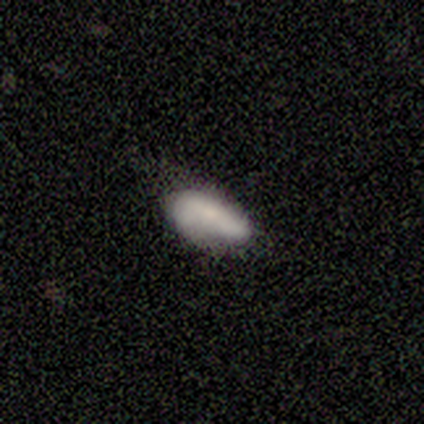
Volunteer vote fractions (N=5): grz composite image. It shows a smooth galaxy with no disk features (100%) that is in between round and cigar-shaped (100%). Merging: none (60%).